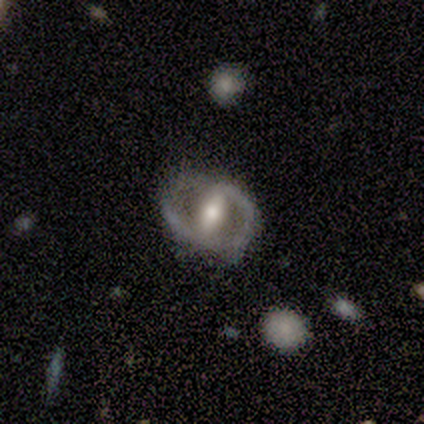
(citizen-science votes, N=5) This appears to be a featured or disk galaxy (80%) with a strong bar (67%), 2 (100%) medium (100%) spiral arms (67%) and a moderate central bulge (100%). Merging: minor disturbance (60%).